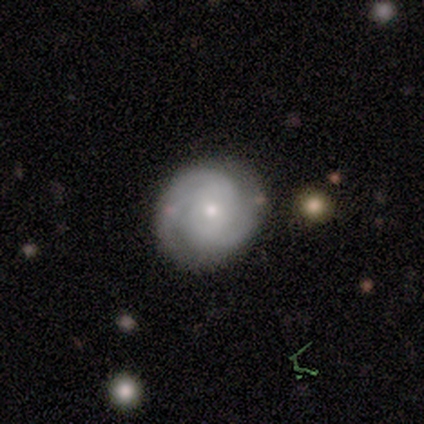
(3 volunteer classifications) A featured or disk galaxy (100%) with no bar (100%), 2 (100%) tight (100%) spiral arms (100%) and a small central bulge (67%). Merging: none (100%).